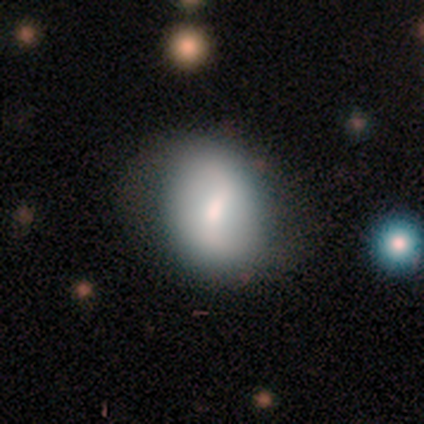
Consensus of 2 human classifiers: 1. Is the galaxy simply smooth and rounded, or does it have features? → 50% smooth (tied), 50% featured or disk (tied), 0% star or artifact.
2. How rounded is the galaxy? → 100% in between, 0% round, 0% cigar-shaped.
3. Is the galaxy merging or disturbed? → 50% none (tied), 50% minor disturbance (tied), 0% major disturbance, 0% merger.